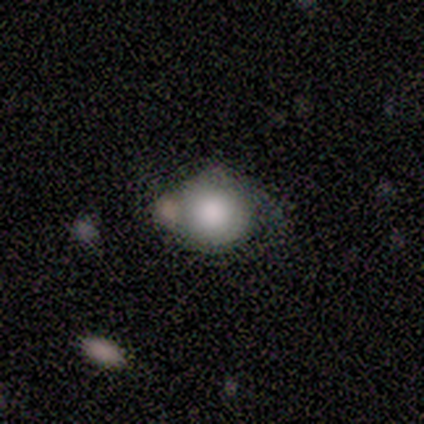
Volunteers were most divided on "how rounded": round: 60%, in between: 40%, cigar-shaped: 0%. More confident: smooth or featured — smooth (100%); merging — minor disturbance (60%).